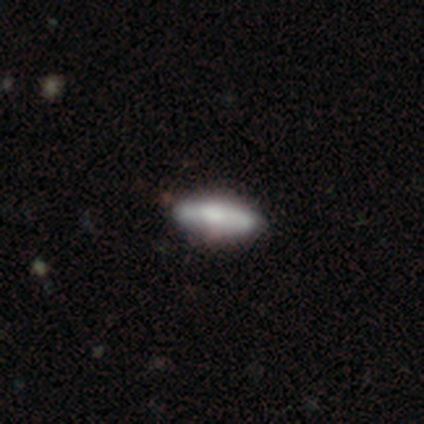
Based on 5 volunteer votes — A smooth galaxy with no disk features (60%) that is cigar-shaped (100%).

Vote fractions:
- Smooth or featured? smooth: 60% / featured or disk: 40% / star or artifact: 0%
- How rounded? cigar-shaped: 100% / round: 0% / in between: 0%
- Merging? none: 100% / minor disturbance: 0% / major disturbance: 0% / merger: 0%